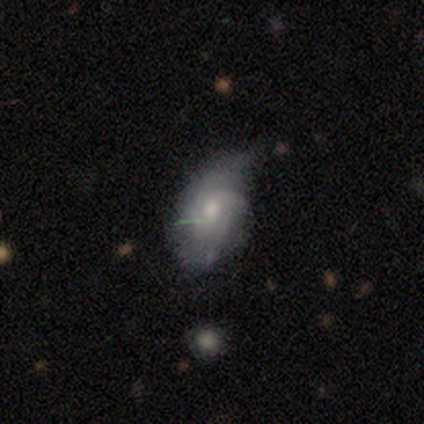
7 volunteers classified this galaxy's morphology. featured or disk 71%, smooth 29%, star or artifact 0%. Down the decision tree: edge-on disk — no (80%); bar — weak (50%, tied with no); spiral arms — yes (100%); spiral arm count — 3 (50%); spiral winding — tight (50%); bulge size — moderate (100%); merging — minor disturbance (57%).